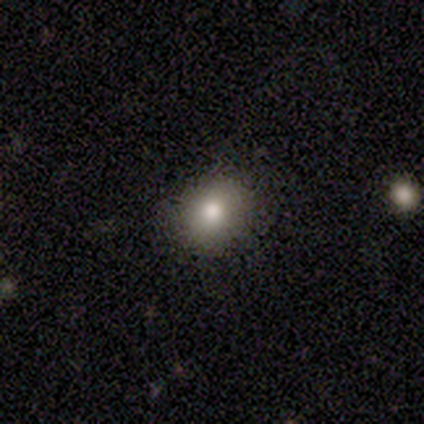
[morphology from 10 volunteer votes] smooth_or_featured: smooth (p=0.80) [alt: featured or disk p=0.20]
how_rounded: round (p=0.50) [tied with: in between p=0.50]
merging: none (p=0.90) [alt: minor disturbance p=0.10]